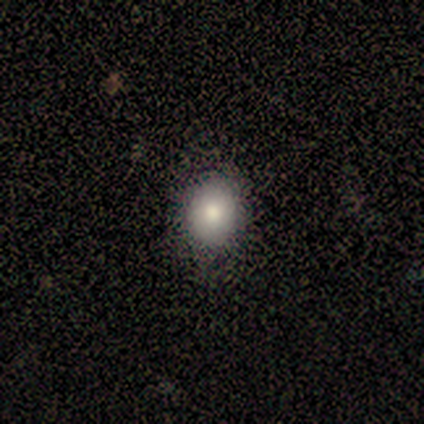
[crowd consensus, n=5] Q: Smooth or featured?
A: smooth (80%); runner-up: featured or disk (20%)
Q: How rounded?
A: round (75%); runner-up: in between (25%)
Q: Merging?
A: none (100%)